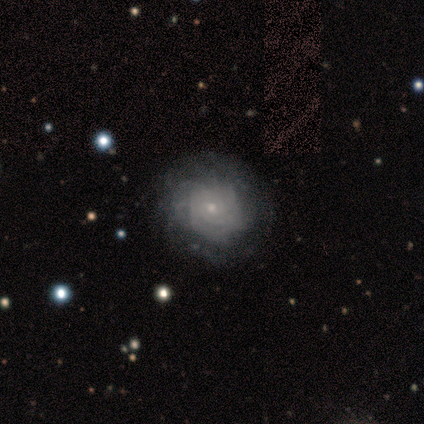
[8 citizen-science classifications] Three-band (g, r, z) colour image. It shows a featured or disk galaxy (75%) with no bar (100%), tight (75%) spiral arms (67%) and a small central bulge (67%). Merging: none (100%).